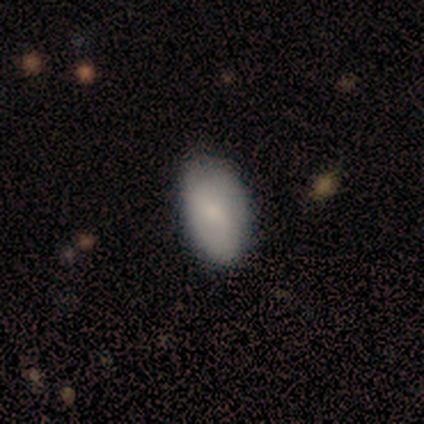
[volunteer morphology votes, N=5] Q: Smooth or featured?
A: smooth (60%); runner-up: featured or disk (20%)
Q: How rounded?
A: in between (100%)
Q: Merging?
A: none (75%); runner-up: minor disturbance (25%)